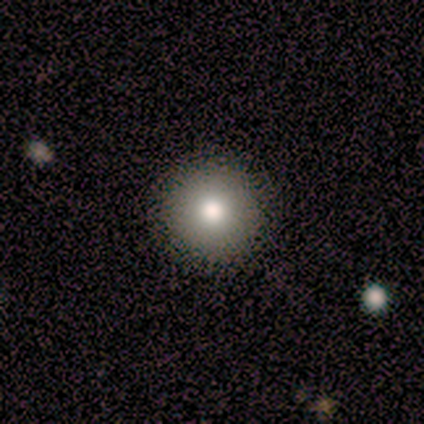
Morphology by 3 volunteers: Overall: smooth (100%). How rounded: round (100%). Merging: none (100%).